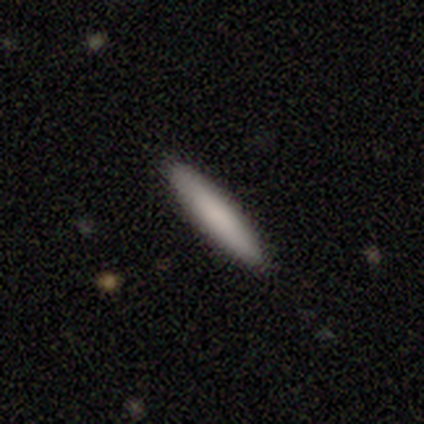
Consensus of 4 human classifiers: smooth-or-featured: smooth: 50% | featured or disk: 25% | star or artifact: 25%
  how-rounded: cigar-shaped: 100% | round: 0% | in between: 0%
  merging: none: 100% | minor disturbance: 0% | major disturbance: 0% | merger: 0%